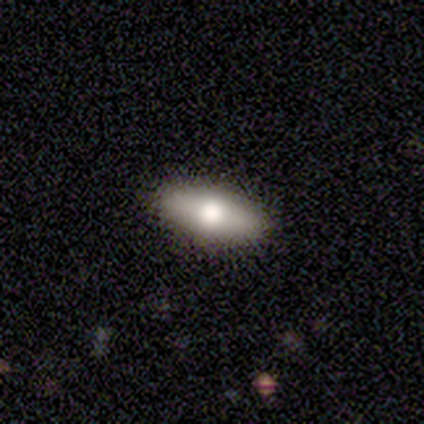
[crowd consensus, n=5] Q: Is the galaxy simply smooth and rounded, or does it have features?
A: smooth — 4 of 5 (80%).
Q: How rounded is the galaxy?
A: in between — 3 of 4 (75%).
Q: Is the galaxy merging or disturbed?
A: none — 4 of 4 (100%).